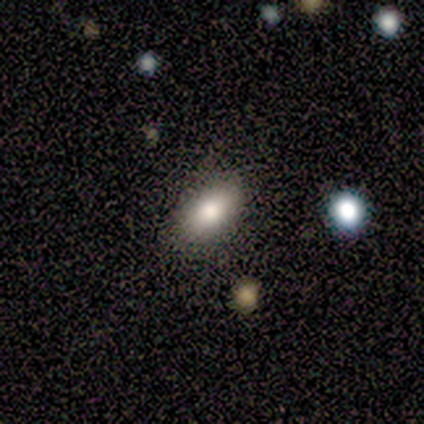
Smooth or featured? 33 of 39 (85%) said smooth. How rounded? 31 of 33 (94%) said in between. Merging? 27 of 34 (79%) said none.